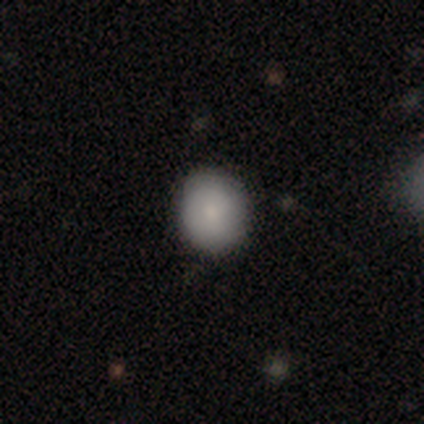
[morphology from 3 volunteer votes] Overall: smooth (67%; star or artifact 33%). How rounded: round (100%). Merging: none (100%).